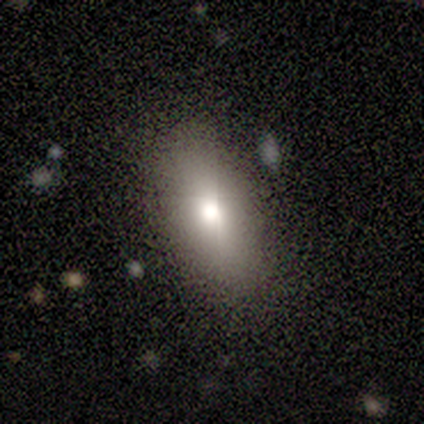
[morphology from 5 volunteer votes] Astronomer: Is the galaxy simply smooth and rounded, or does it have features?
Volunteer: smooth — 100%.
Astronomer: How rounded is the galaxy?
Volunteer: in between — 80%.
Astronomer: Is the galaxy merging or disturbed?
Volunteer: none — 80%.